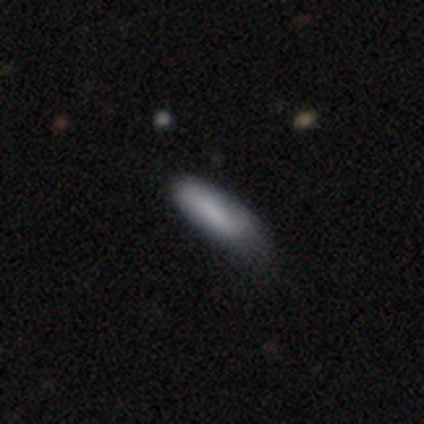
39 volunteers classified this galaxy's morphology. type=smooth (85%); roundness=in between (73%); merging=minor disturbance (65%).